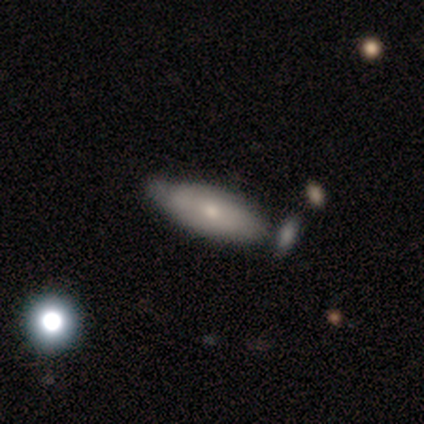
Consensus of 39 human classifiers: A smooth galaxy with no disk features (62%) that is in between round and cigar-shaped (54%).

Vote fractions:
- Smooth or featured? smooth: 62% / featured or disk: 31% / star or artifact: 8%
- How rounded? in between: 54% / cigar-shaped: 46% / round: 0%
- Merging? none: 53% / minor disturbance: 28% / merger: 19% / major disturbance: 0%